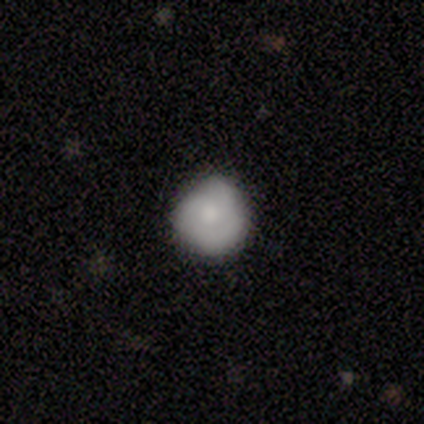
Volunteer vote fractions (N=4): Volunteers were most divided on "how rounded": round: 75%, in between: 25%, cigar-shaped: 0%. More confident: smooth or featured — smooth (100%); merging — none (75%).